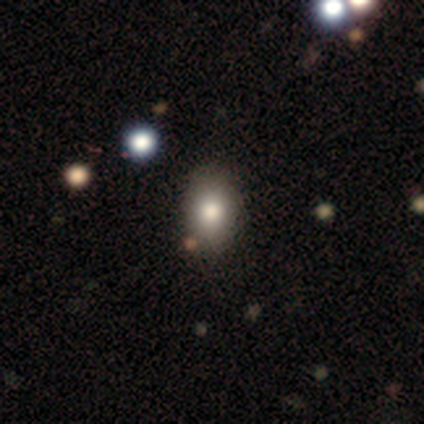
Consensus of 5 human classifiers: Volunteers were most divided on "how rounded": in between: 60%, round: 40%, cigar-shaped: 0%. More confident: smooth or featured — smooth (100%); merging — none (100%).